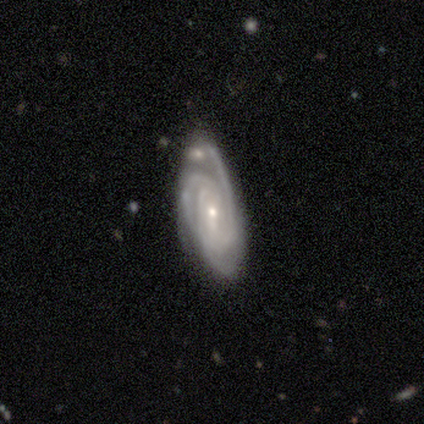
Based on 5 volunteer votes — Morphology: type=featured or disk (100%); edge-on=no (100%); bar=weak (80%); spiral arms=yes (100%); winding=tight (60%); arm count=3 (80%); bulge=small (80%); merging=none (80%).